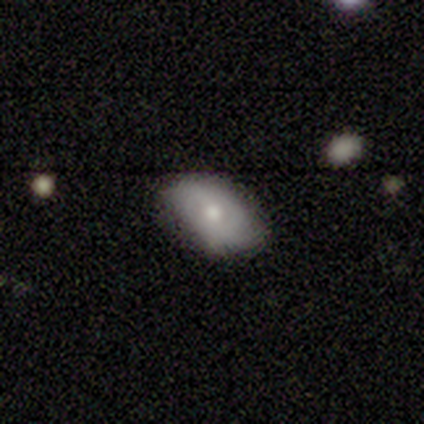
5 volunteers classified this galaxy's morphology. Overall: smooth (80%). How rounded: in between (100%). Merging: none (60%; minor disturbance 40%).